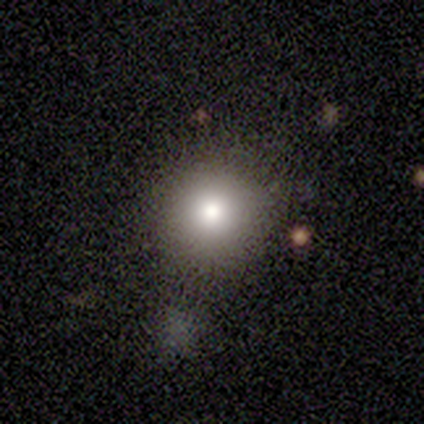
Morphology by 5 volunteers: Volunteers were most divided on "merging": none: 50%, minor disturbance: 25%, merger: 25%, major disturbance: 0%. More confident: how rounded — round (100%); smooth or featured — smooth (60%).